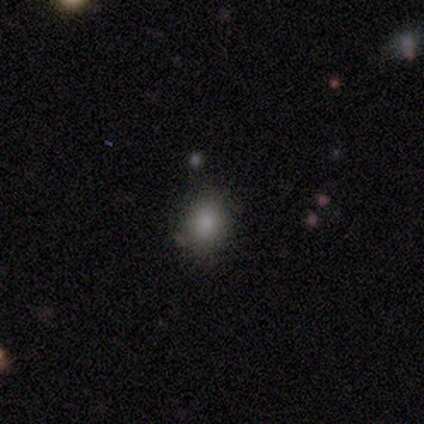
This appears to be a smooth galaxy with no disk features (50%) that is round (75%). Merging: none (100%).